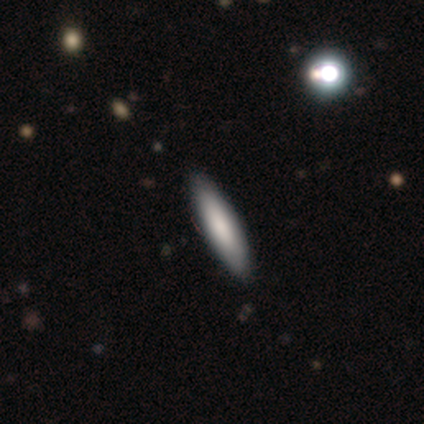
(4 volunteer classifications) This appears to be a smooth galaxy with no disk features (100%) that is cigar-shaped (75%). Merging: none (100%).